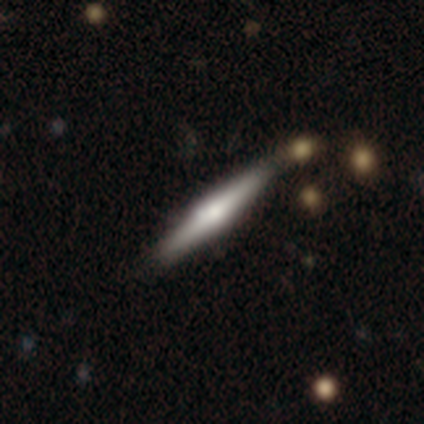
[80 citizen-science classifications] Smooth or featured? 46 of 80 (57%) said featured or disk. Edge-on disk? 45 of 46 (98%) said yes. Edge-on bulge? 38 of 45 (84%) said rounded. Merging? 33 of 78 (42%) said none.